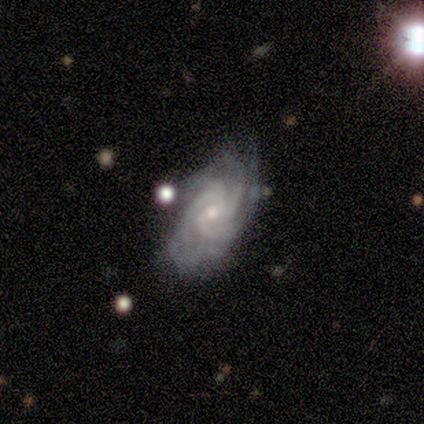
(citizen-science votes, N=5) Smooth or featured?
  - featured or disk: 80% *
  - smooth: 20%
  - star or artifact: 0%
Edge-on disk?
  - no: 75% *
  - yes: 25%
Bar?
  - no: 67% *
  - weak: 33%
  - strong: 0%
Spiral arms?
  - yes: 100% *
  - no: 0%
Spiral winding?
  - tight: 67% *
  - loose: 33%
  - medium: 0%
Spiral arm count?
  - 3: 67% *
  - 2: 33%
  - 1: 0%
  - 4: 0%
  - more than 4: 0%
  - can't tell: 0%
Bulge size?
  - small: 100% *
  - dominant: 0%
  - large: 0%
  - moderate: 0%
  - none: 0%
Merging?
  - minor disturbance: 80% *
  - major disturbance: 20%
  - none: 0%
  - merger: 0%